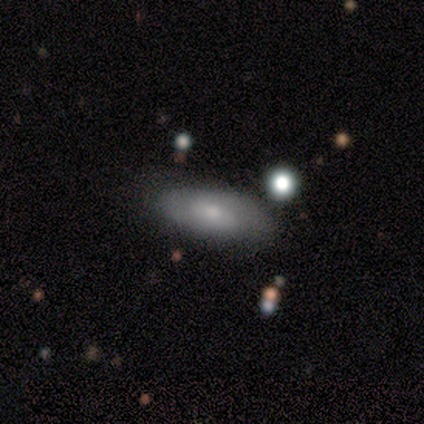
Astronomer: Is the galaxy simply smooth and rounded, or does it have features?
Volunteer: smooth — 67%.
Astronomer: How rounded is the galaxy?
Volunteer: in between — 75%.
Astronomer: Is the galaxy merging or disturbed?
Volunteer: none — 67%.